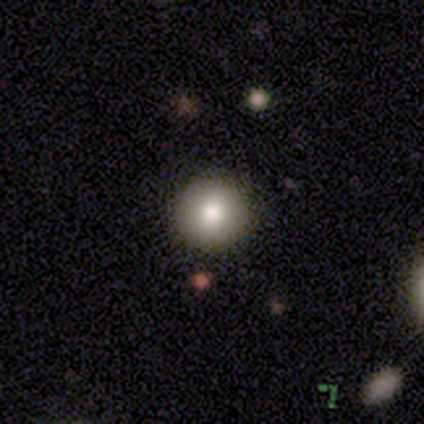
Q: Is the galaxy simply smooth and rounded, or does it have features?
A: smooth — 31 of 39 (79%).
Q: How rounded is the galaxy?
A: round — 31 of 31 (100%).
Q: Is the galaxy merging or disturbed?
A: none — 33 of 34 (97%).